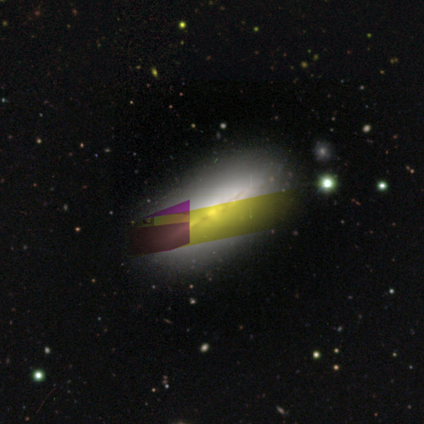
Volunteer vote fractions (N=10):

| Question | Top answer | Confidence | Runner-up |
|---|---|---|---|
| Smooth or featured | featured or disk | 60% | star or artifact (30%) |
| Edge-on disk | yes | 83% | no (17%) |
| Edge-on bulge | none | 60% | rounded (40%) |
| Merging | none | 100% | — |